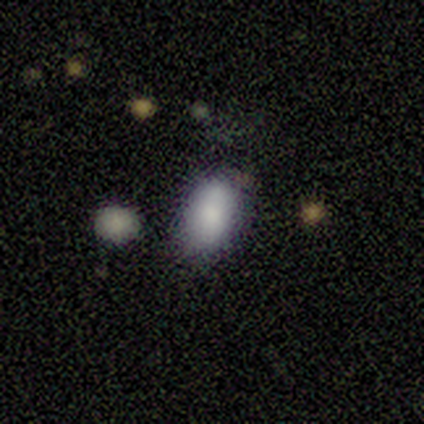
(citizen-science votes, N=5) smooth-or-featured: smooth: 100% | featured or disk: 0% | star or artifact: 0%
  how-rounded: in between: 80% | cigar-shaped: 20% | round: 0%
  merging: none: 60% | minor disturbance: 40% | major disturbance: 0% | merger: 0%